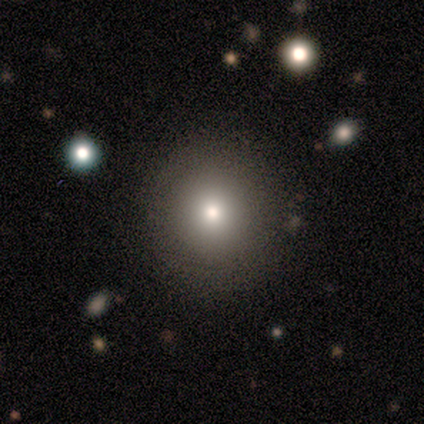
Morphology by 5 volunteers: star or artifact 60%, smooth 40%, featured or disk 0%.